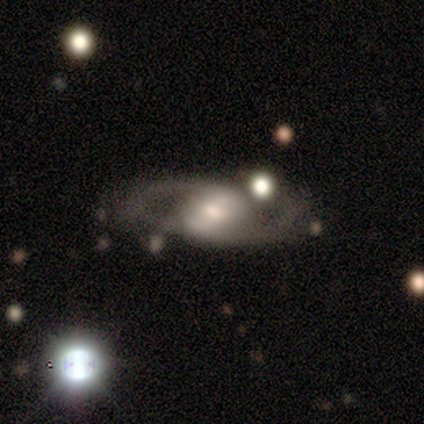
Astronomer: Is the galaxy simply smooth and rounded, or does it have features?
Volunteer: featured or disk — 60% (runner-up: smooth, 40%).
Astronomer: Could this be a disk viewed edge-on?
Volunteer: no — 67%.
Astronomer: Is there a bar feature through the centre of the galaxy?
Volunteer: weak — 50%, tied with no at 50%.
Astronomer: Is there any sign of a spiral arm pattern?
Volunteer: yes — 100%.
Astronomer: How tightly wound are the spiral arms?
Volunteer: loose — 100%.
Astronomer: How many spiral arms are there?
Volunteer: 2 — 100%.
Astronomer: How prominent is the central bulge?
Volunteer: moderate — 50%, tied with small at 50%.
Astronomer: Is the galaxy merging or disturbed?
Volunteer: none — 80%.